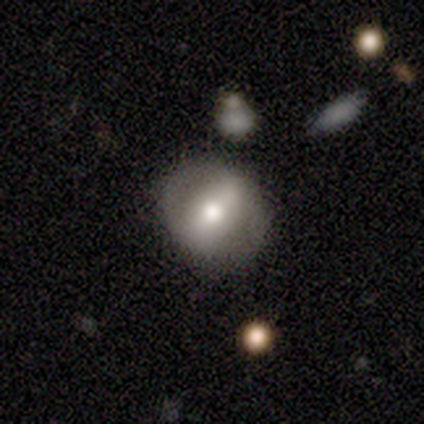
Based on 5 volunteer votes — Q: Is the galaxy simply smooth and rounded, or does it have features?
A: smooth — 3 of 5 (60%).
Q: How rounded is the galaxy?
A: in between — 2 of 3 (67%).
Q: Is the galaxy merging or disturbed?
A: none — 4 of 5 (80%).